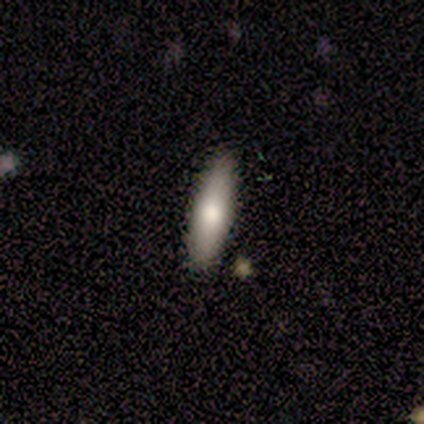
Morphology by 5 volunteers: Overall: smooth (60%; featured or disk 20%). How rounded: in between (67%; cigar-shaped 33%). Merging: none (100%).